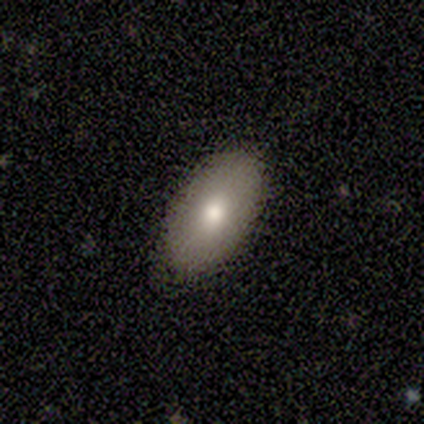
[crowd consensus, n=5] Volunteers were most divided on "merging": none: 60%, minor disturbance: 40%, major disturbance: 0%, merger: 0%. More confident: how rounded — in between (100%); smooth or featured — smooth (80%).